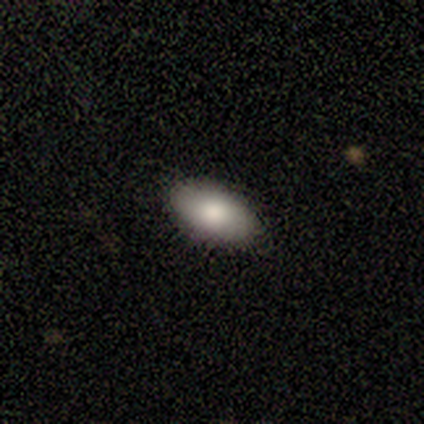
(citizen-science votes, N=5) Smooth or featured? smooth (60%)
How rounded? in between (100%)
Merging? none (100%)